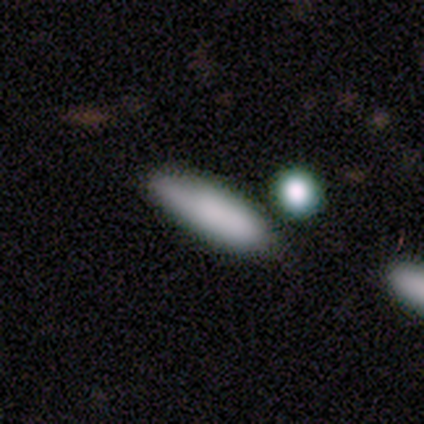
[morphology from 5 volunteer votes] A smooth galaxy with no disk features (40%, tied with star or artifact) that is cigar-shaped (100%). Merging: none (100%).